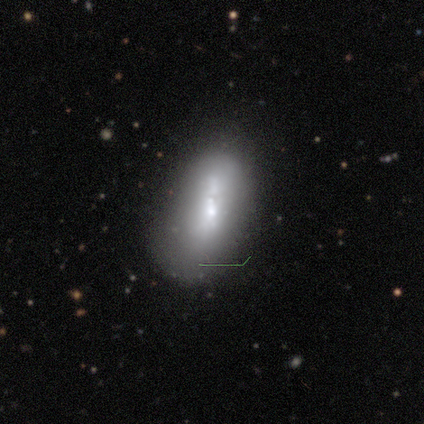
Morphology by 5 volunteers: Volunteers were most divided on "smooth or featured" (2-way tie): smooth: 40%, featured or disk: 40%, star or artifact: 20%. More confident: how rounded — in between (100%); merging — merger (50%).